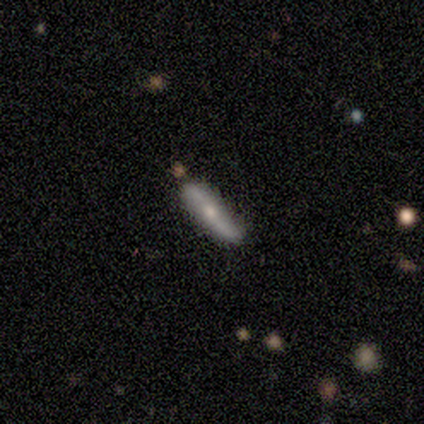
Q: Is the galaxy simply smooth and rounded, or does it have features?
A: featured or disk — 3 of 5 (60%).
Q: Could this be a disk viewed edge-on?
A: yes — 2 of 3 (67%).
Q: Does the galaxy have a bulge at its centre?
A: rounded — 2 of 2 (100%).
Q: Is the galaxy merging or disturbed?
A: minor disturbance — 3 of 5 (60%).